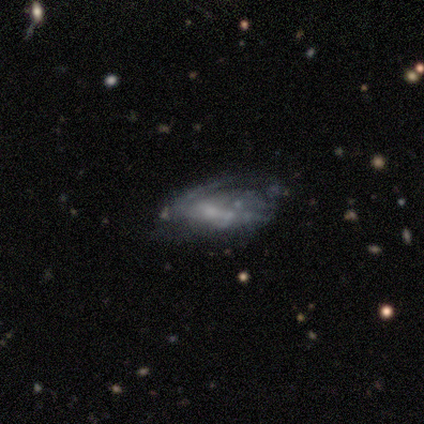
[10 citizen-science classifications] smooth-or-featured: featured or disk: 70% | smooth: 20% | star or artifact: 10%
  disk-edge-on: no: 100% | yes: 0%
    bar: no: 71% | strong: 29% | weak: 0%
    has-spiral-arms: no: 86% | yes: 14%
    bulge-size: small: 43% (tied) | none: 43% (tied) | moderate: 14% | dominant: 0% | large: 0%
  merging: none: 33% (tied) | minor disturbance: 33% (tied) | major disturbance: 33% (tied) | merger: 0%